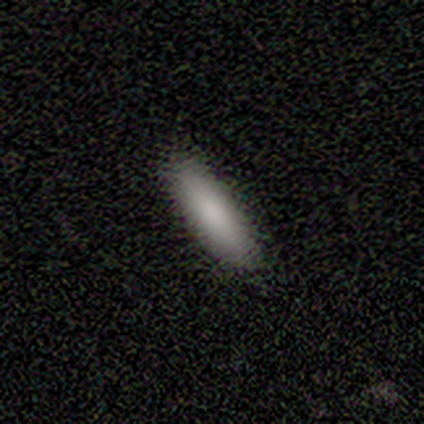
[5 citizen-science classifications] This appears to be a smooth galaxy with no disk features (100%) that is in between round and cigar-shaped (60%). Merging: none (100%).